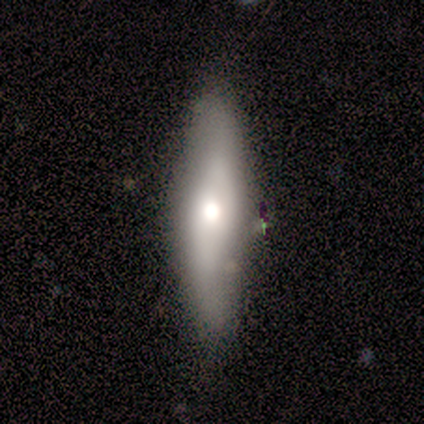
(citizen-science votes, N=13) A featured or disk galaxy (62%) viewed edge-on (75%) with a rounded central bulge (67%).

Vote fractions:
- Smooth or featured? featured or disk: 62% / smooth: 38% / star or artifact: 0%
- Edge-on disk? yes: 75% / no: 25%
- Edge-on bulge? rounded: 67% / boxy: 17% / none: 17%
- Merging? none: 85% / minor disturbance: 8% / major disturbance: 8% / merger: 0%